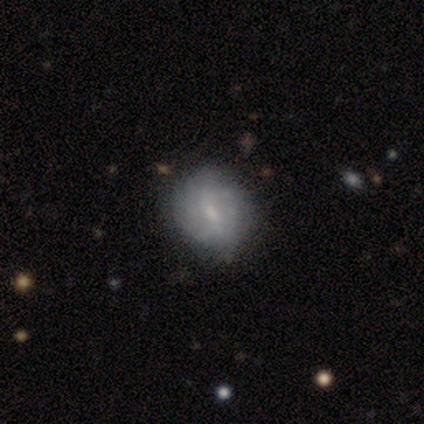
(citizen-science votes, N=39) A featured or disk galaxy (62%) with a weak bar (62%), tight (50%) spiral arms (75%) and a small central bulge (58%).

Vote fractions:
- Smooth or featured? featured or disk: 62% / smooth: 36% / star or artifact: 3%
- Edge-on disk? no: 100% / yes: 0%
- Bar? weak: 62% / no: 33% / strong: 4%
- Spiral arms? yes: 75% / no: 25%
- Spiral winding? tight: 50% / medium: 39% / loose: 11%
- Spiral arm count? can't tell: 67% / 2: 28% / 3: 6% / 1: 0% / 4: 0% / more than 4: 0%
- Bulge size? small: 58% / none: 29% / moderate: 12% / dominant: 0% / large: 0%
- Merging? none: 55% / minor disturbance: 24% / major disturbance: 3% / merger: 3%